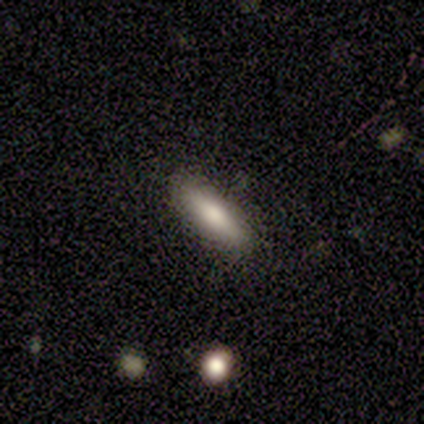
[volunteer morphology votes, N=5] Volunteers were most divided on "how rounded": cigar-shaped: 75%, in between: 25%, round: 0%. More confident: merging — none (100%); smooth or featured — smooth (80%).